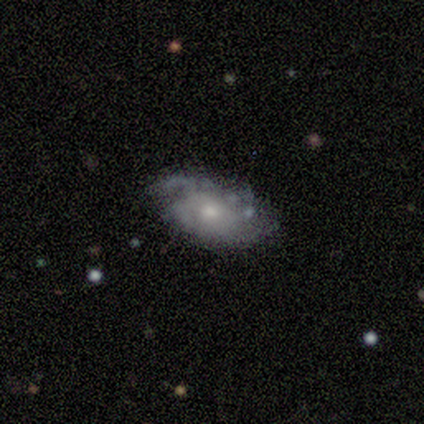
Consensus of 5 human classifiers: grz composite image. It shows a featured or disk galaxy (60%) with no bar (100%), tight (33%, tied with medium and loose) spiral arms (100%) and a small central bulge (67%). Merging: none (80%).